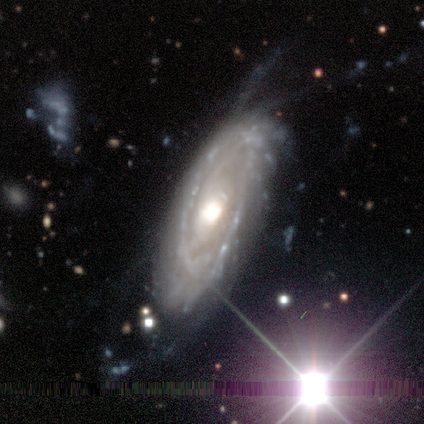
A featured or disk galaxy (40%, tied with star or artifact) with no bar (100%), no spiral arms (100%) and a large central bulge (50%, tied with moderate).

Vote fractions:
- Smooth or featured? featured or disk: 40% (tied) / star or artifact: 40% (tied) / smooth: 20%
- Edge-on disk? no: 100% / yes: 0%
- Bar? no: 100% / strong: 0% / weak: 0%
- Spiral arms? no: 100% / yes: 0%
- Bulge size? large: 50% (tied) / moderate: 50% (tied) / dominant: 0% / small: 0% / none: 0%
- Merging? minor disturbance: 67% / none: 33% / major disturbance: 0% / merger: 0%